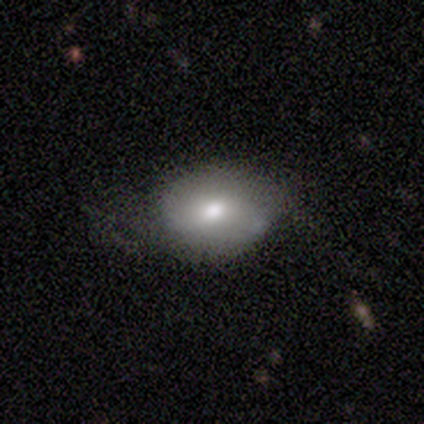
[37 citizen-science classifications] Smooth or featured: smooth — 57% (featured or disk — 38%)
How rounded: in between — 71% (round — 29%)
Merging: none — 57% (minor disturbance — 31%)